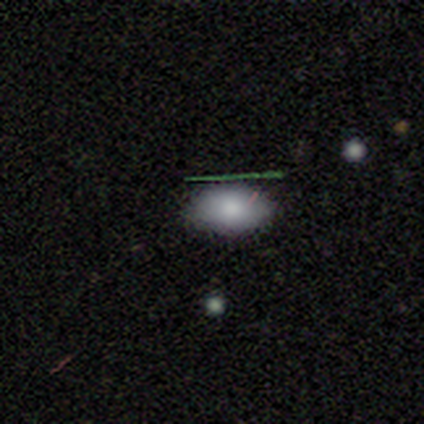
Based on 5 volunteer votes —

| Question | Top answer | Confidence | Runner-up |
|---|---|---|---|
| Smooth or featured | smooth | 80% | star or artifact (20%) |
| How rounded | in between | 100% | — |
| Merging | none | 100% | — |